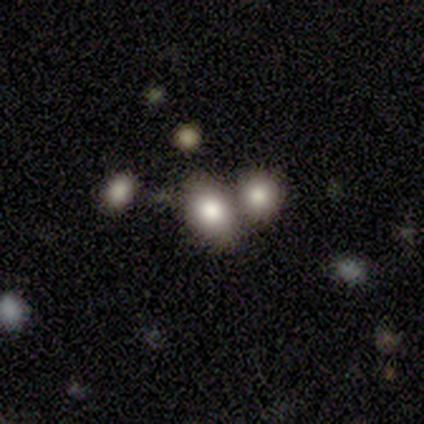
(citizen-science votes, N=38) Overall: smooth (68%). How rounded: in between (69%; round 31%). Merging: none (47%; merger 34%).